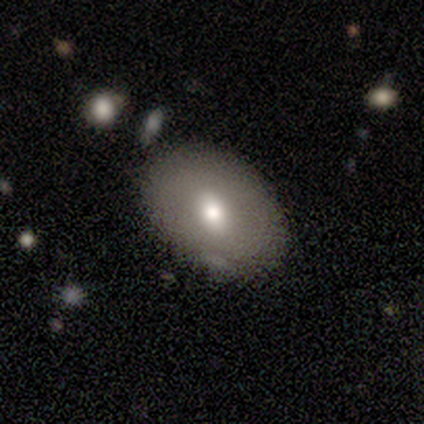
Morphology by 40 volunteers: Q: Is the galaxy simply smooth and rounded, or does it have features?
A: smooth — 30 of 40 (75%).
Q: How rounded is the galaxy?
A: in between — 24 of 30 (80%).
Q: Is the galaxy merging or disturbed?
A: none — 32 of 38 (84%).